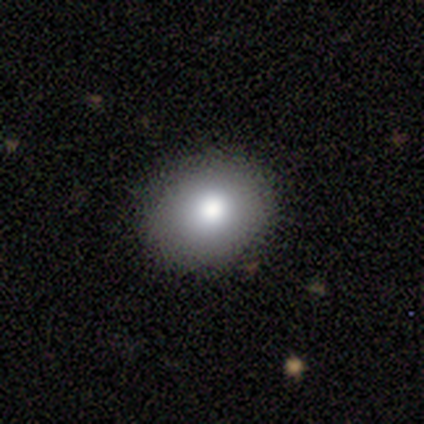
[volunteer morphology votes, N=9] Smooth or featured?
  - smooth: 89% *
  - featured or disk: 11%
  - star or artifact: 0%
How rounded?
  - round: 50% * (tied)
  - in between: 50% * (tied)
  - cigar-shaped: 0%
Merging?
  - none: 100% *
  - minor disturbance: 0%
  - major disturbance: 0%
  - merger: 0%